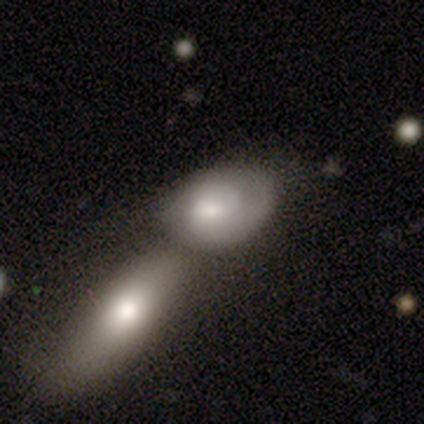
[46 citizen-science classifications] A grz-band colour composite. It shows a featured or disk galaxy (61%) with no bar (73%), 2 (47%) tight (53%) spiral arms (65%) and a moderate central bulge (46%). Merging: merger (63%).